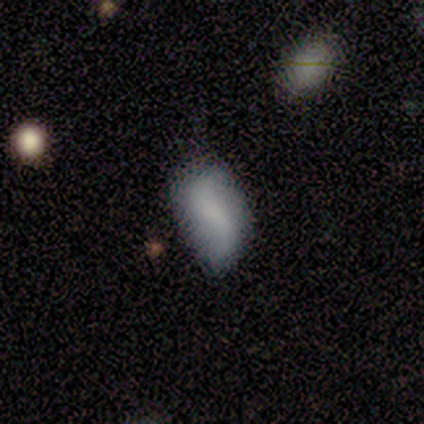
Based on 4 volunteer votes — A smooth galaxy with no disk features (50%) that is in between round and cigar-shaped (100%).

Vote fractions:
- Smooth or featured? smooth: 50% / featured or disk: 25% / star or artifact: 25%
- How rounded? in between: 100% / round: 0% / cigar-shaped: 0%
- Merging? none: 67% / minor disturbance: 33% / major disturbance: 0% / merger: 0%